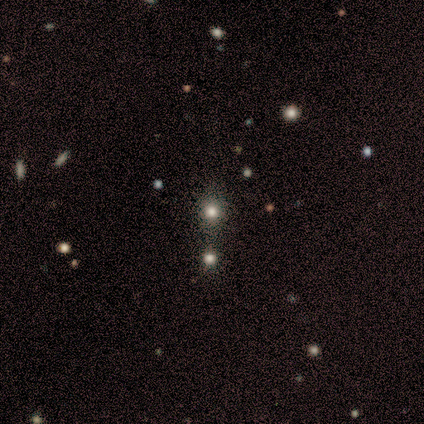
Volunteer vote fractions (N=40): smooth_or_featured: smooth (p=0.62) [alt: star or artifact p=0.35]
how_rounded: round (p=0.76) [alt: in between p=0.20]
merging: none (p=0.38) [alt: merger p=0.35]